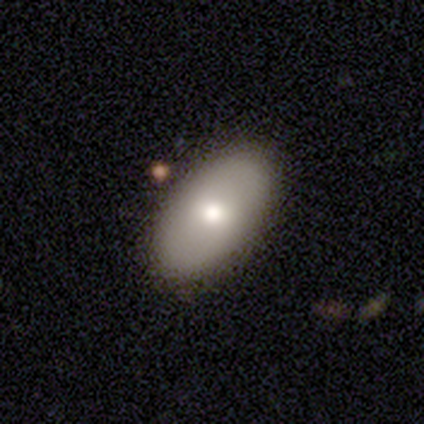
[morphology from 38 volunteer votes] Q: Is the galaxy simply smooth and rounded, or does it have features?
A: smooth — 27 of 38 (71%).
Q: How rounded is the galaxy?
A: in between — 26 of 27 (96%).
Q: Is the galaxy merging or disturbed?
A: none — 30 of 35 (86%).